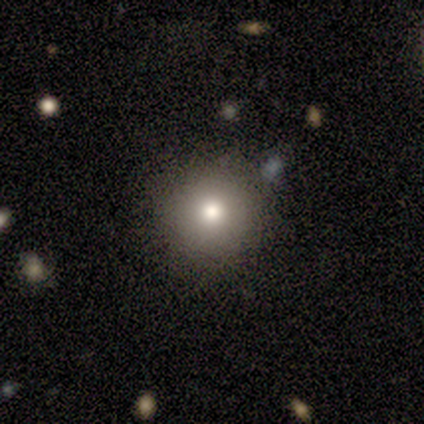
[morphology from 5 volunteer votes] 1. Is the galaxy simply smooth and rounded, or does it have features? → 100% smooth, 0% featured or disk, 0% star or artifact.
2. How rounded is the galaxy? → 100% round, 0% in between, 0% cigar-shaped.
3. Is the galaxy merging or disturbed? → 100% none, 0% minor disturbance, 0% major disturbance, 0% merger.